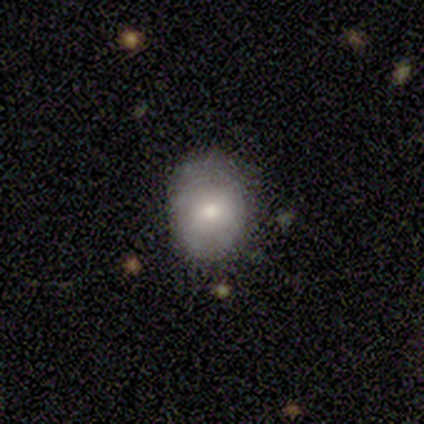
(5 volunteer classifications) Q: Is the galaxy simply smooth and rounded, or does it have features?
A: smooth — 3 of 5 (60%).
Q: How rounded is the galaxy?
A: in between — 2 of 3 (67%).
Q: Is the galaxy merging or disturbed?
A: none — 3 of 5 (60%).